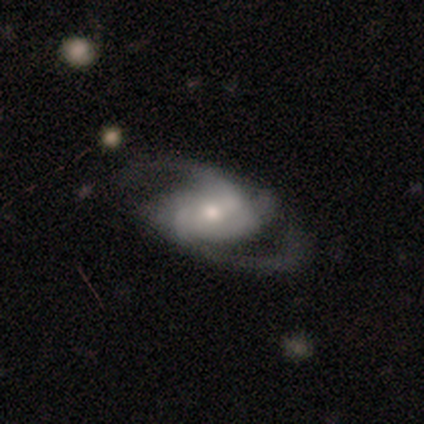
Smooth or featured?
  - featured or disk: 93% *
  - smooth: 4%
  - star or artifact: 3%
Edge-on disk?
  - no: 99% *
  - yes: 1%
Bar?
  - weak: 45% *
  - no: 31%
  - strong: 24%
Spiral arms?
  - yes: 92% *
  - no: 8%
Spiral winding?
  - medium: 63% *
  - loose: 23%
  - tight: 13%
Spiral arm count?
  - 2: 79% *
  - 3: 11%
  - 4: 4%
  - can't tell: 4%
  - 1: 1%
  - more than 4: 1%
Bulge size?
  - small: 48% *
  - moderate: 42%
  - large: 4%
  - dominant: 3%
  - none: 2%
Merging?
  - none: 63% *
  - minor disturbance: 19%
  - major disturbance: 18%
  - merger: 0%